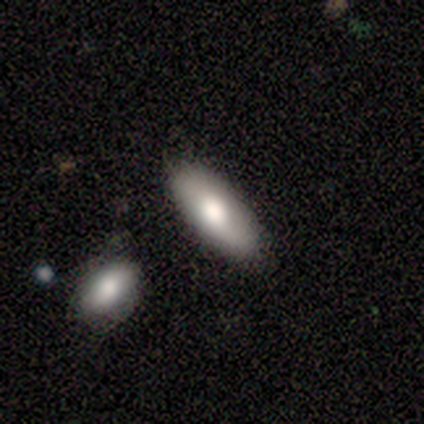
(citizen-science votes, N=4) A smooth galaxy with no disk features (75%) that is in between round and cigar-shaped (100%).

Vote fractions:
- Smooth or featured? smooth: 75% / featured or disk: 25% / star or artifact: 0%
- How rounded? in between: 100% / round: 0% / cigar-shaped: 0%
- Merging? none: 100% / minor disturbance: 0% / major disturbance: 0% / merger: 0%